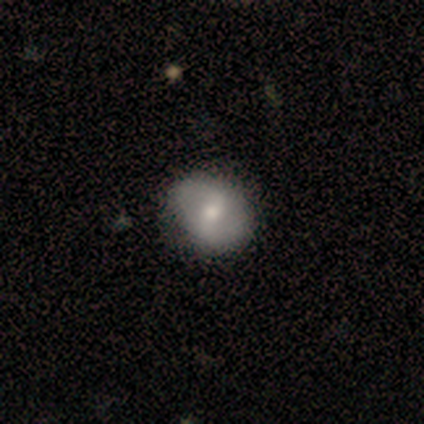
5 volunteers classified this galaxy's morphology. Q: Smooth or featured?
A: featured or disk (80%); runner-up: smooth (20%)
Q: Edge-on disk?
A: no (100%)
Q: Bar?
A: weak (50%); runner-up: strong (25%)
Q: Spiral arms?
A: yes (75%); runner-up: no (25%)
Q: Spiral winding?
A: tight (33%); tied with: medium (33%); loose (33%)
Q: Spiral arm count?
A: 2 (100%)
Q: Bulge size?
A: moderate (100%)
Q: Merging?
A: none (80%); runner-up: minor disturbance (20%)